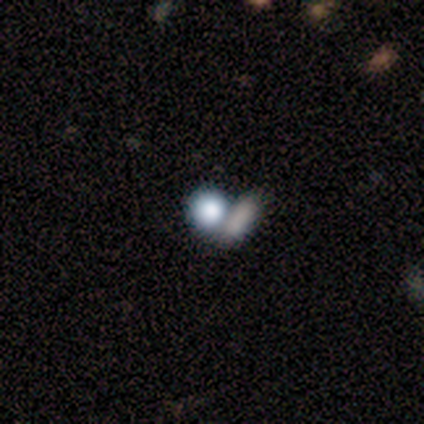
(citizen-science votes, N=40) A smooth galaxy with no disk features (57%) that is round (70%). Merging: merger (56%).